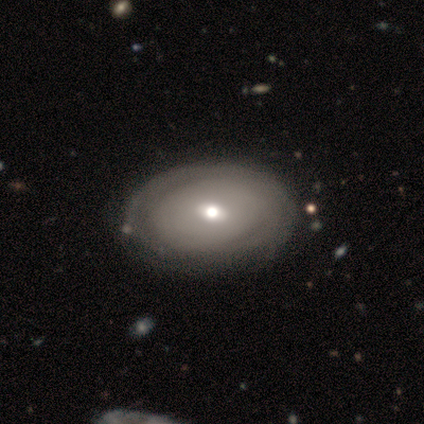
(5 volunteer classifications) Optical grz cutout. It shows a featured or disk galaxy (60%) with no bar (67%), tight (100%) spiral arms (67%) and a moderate central bulge (100%). Merging: none (60%).